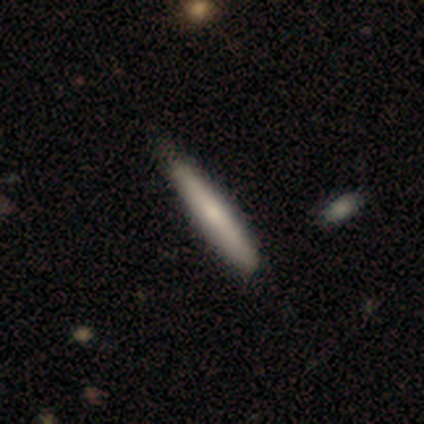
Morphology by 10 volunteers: smooth 80%, featured or disk 20%, star or artifact 0%. Down the decision tree: how rounded — cigar-shaped (88%); merging — none (100%).